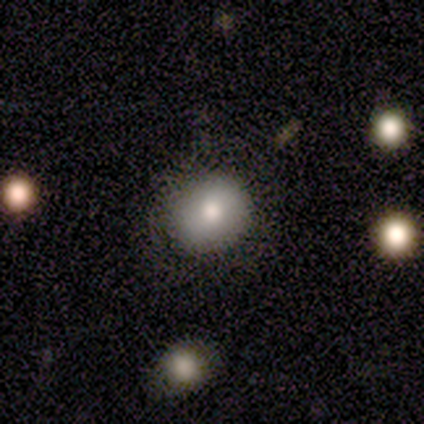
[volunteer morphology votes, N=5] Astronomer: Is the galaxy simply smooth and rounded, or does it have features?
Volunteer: smooth — 80%.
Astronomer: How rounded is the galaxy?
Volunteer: round — 50%, tied with in between at 50%.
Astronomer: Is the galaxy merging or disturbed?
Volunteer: none — 80%.